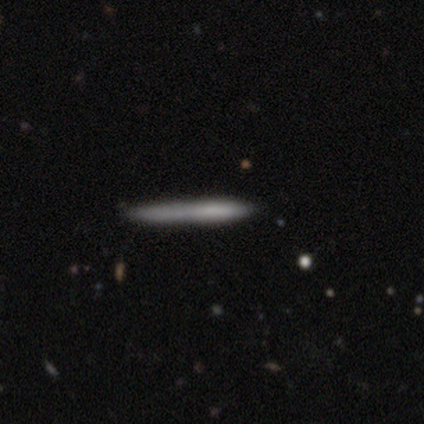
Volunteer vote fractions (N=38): A smooth galaxy with no disk features (58%) that is cigar-shaped (100%).

Vote fractions:
- Smooth or featured? smooth: 58% / featured or disk: 34% / star or artifact: 8%
- How rounded? cigar-shaped: 100% / round: 0% / in between: 0%
- Merging? none: 74% / minor disturbance: 17% / major disturbance: 6% / merger: 3%